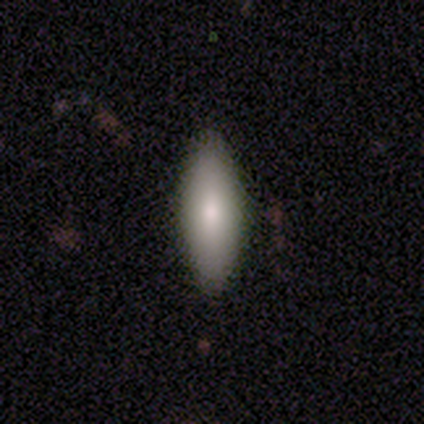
smooth-or-featured: smooth: 76% | featured or disk: 19% | star or artifact: 5%
  how-rounded: cigar-shaped: 57% | in between: 43% | round: 0%
  merging: none: 77% | minor disturbance: 14% | major disturbance: 6% | merger: 3%